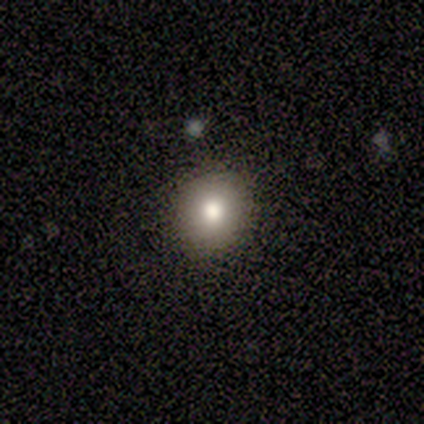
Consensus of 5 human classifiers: A smooth galaxy with no disk features (100%) that is round (100%). Merging: none (100%).